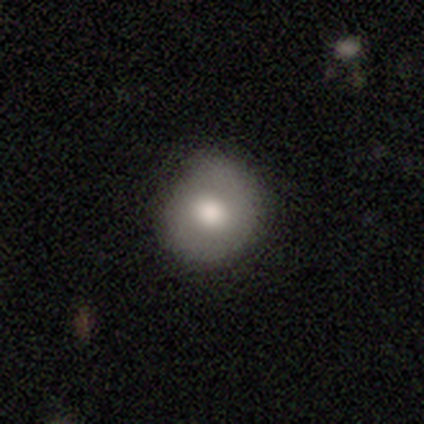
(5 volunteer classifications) This is clearly a featured or disk galaxy (80%). It is clearly not viewed edge-on (100%). Bar: clearly no (100%). Spiral arm pattern: possibly yes (50%, tied with no). Spiral arm count: clearly 2 (100%). Spiral winding: possibly medium (50%, tied with loose). Central bulge: possibly large (50%, tied with moderate). Merging: likely none (60%).